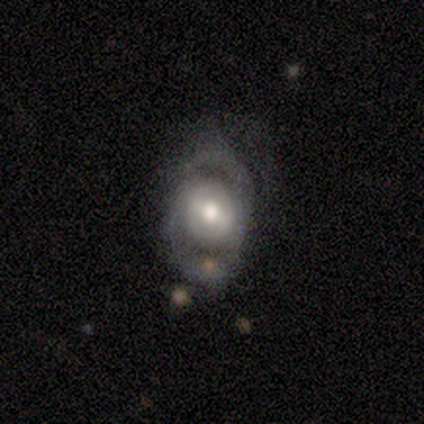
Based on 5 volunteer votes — featured or disk 80%, smooth 20%, star or artifact 0%. Down the decision tree: edge-on disk — no (75%); bar — weak (67%); spiral arms — yes (67%); spiral arm count — 2 (100%); spiral winding — medium (100%); bulge size — moderate (67%); merging — none (80%).